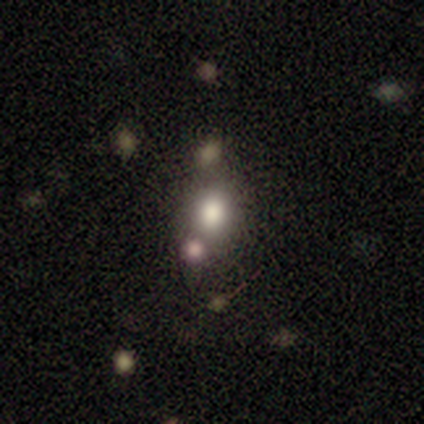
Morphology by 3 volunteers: Smooth or featured?
  - smooth: 67% *
  - star or artifact: 33%
  - featured or disk: 0%
How rounded?
  - round: 100% *
  - in between: 0%
  - cigar-shaped: 0%
Merging?
  - none: 50% * (tied)
  - major disturbance: 50% * (tied)
  - minor disturbance: 0%
  - merger: 0%